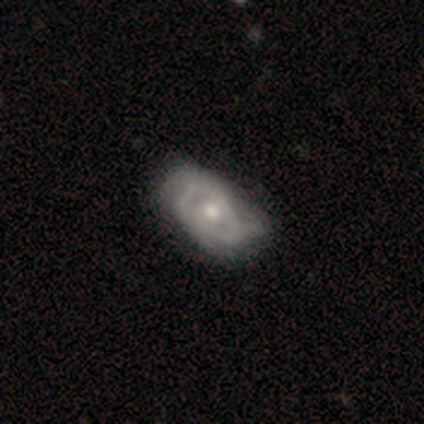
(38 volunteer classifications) Volunteers were most divided on "spiral arm count": can't tell: 38%, 2: 29%, 1: 19%, 3: 10%, 4: 5%, more than 4: 0%. Remaining: edge-on disk — no (97%); smooth or featured — featured or disk (82%); bar — no (80%); spiral arms — yes (70%); bulge size — moderate (70%); spiral winding — tight (62%); merging — none (46%).